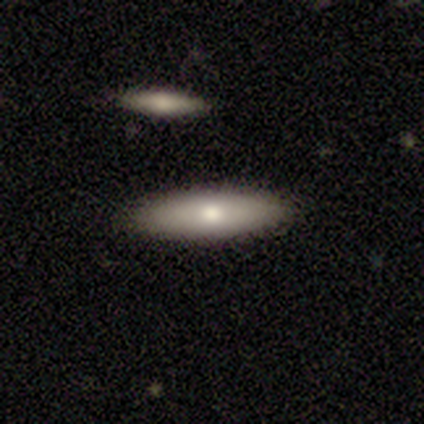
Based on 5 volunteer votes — This appears to be a smooth galaxy with no disk features (60%) that is in between round and cigar-shaped (100%). Merging: none (100%).